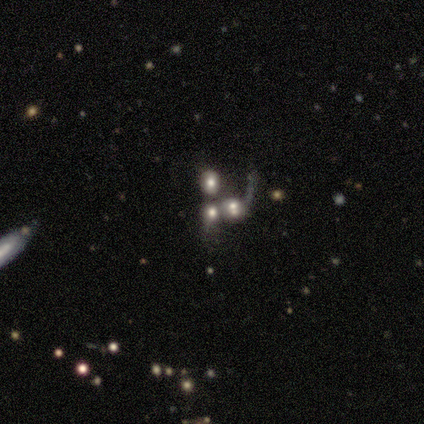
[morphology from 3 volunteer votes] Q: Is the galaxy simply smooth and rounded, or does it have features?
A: star or artifact — 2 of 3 (67%).